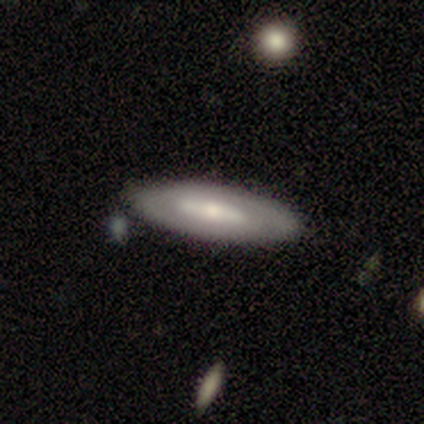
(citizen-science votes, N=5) A smooth galaxy with no disk features (40%, tied with featured or disk) that is in between round and cigar-shaped (100%).

Vote fractions:
- Smooth or featured? smooth: 40% (tied) / featured or disk: 40% (tied) / star or artifact: 20%
- How rounded? in between: 100% / round: 0% / cigar-shaped: 0%
- Merging? none: 100% / minor disturbance: 0% / major disturbance: 0% / merger: 0%